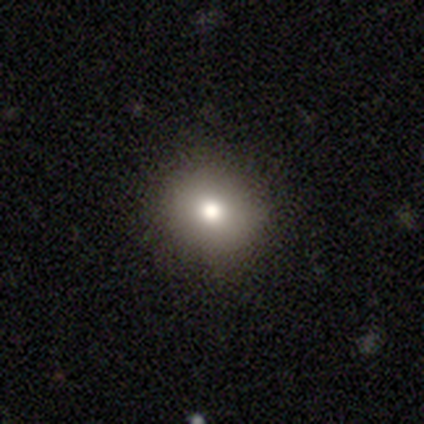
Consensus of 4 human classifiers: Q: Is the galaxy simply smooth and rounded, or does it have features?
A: smooth — 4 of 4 (100%).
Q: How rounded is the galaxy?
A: round — 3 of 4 (75%).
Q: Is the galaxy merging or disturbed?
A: none — 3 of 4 (75%).